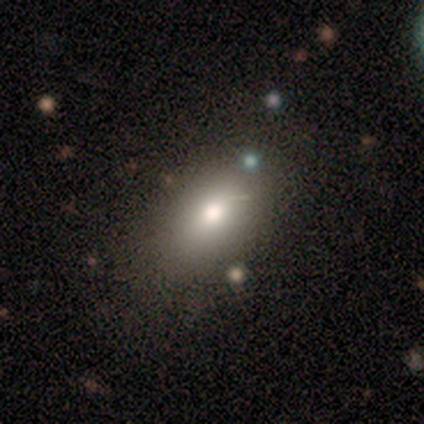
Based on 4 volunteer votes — smooth_or_featured: smooth (p=1.00)
how_rounded: in between (p=0.75) [alt: cigar-shaped p=0.25]
merging: none (p=0.75) [alt: minor disturbance p=0.25]